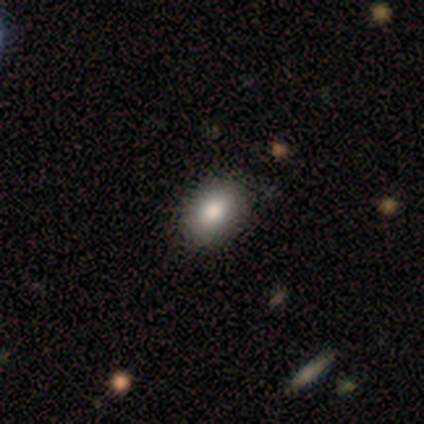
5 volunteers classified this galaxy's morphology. smooth_or_featured: smooth (p=1.00)
how_rounded: in between (p=1.00)
merging: none (p=0.80) [alt: minor disturbance p=0.20]